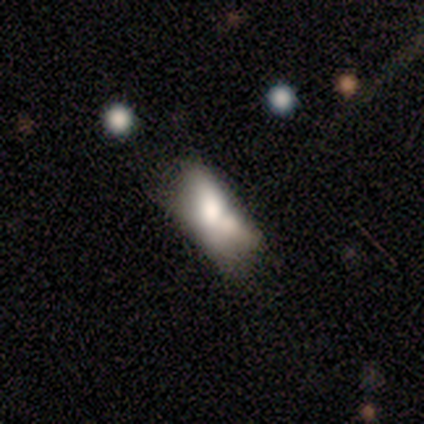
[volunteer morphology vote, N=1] Smooth or featured?
  - smooth: 100% *
  - featured or disk: 0%
  - star or artifact: 0%
How rounded?
  - in between: 100% *
  - round: 0%
  - cigar-shaped: 0%
Merging?
  - merger: 100% *
  - none: 0%
  - minor disturbance: 0%
  - major disturbance: 0%